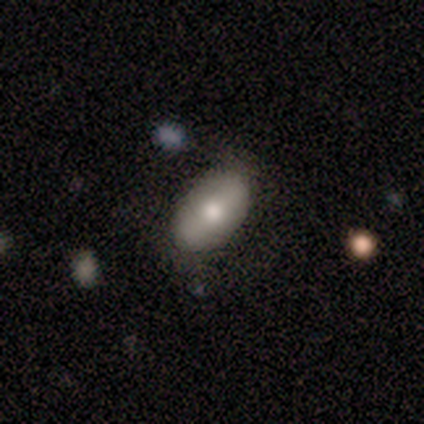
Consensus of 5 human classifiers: smooth 80%, featured or disk 20%, star or artifact 0%. Down the decision tree: how rounded — in between (100%); merging — none (60%).